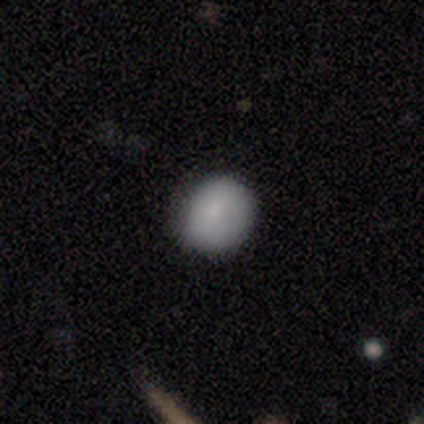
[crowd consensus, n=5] Smooth or featured: smooth — 80% (featured or disk — 20%)
How rounded: round — 75% (in between — 25%)
Merging: none — 100%